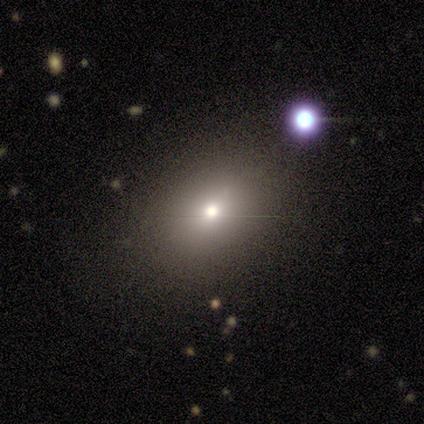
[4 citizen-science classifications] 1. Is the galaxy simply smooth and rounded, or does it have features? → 100% smooth, 0% featured or disk, 0% star or artifact.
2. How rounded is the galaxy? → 75% in between, 25% round, 0% cigar-shaped.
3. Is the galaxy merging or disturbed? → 75% none, 25% minor disturbance, 0% major disturbance, 0% merger.